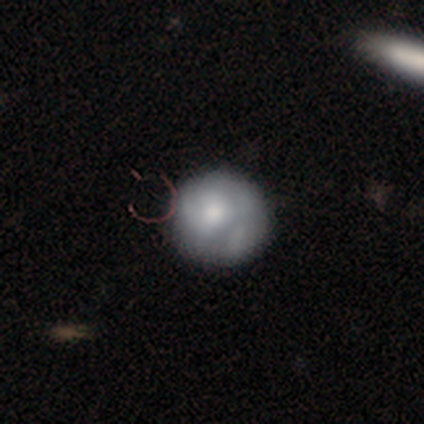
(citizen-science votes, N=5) smooth_or_featured: smooth (p=0.60) [alt: featured or disk p=0.20]
how_rounded: round (p=1.00)
merging: none (p=0.50) [tied with: minor disturbance p=0.50]